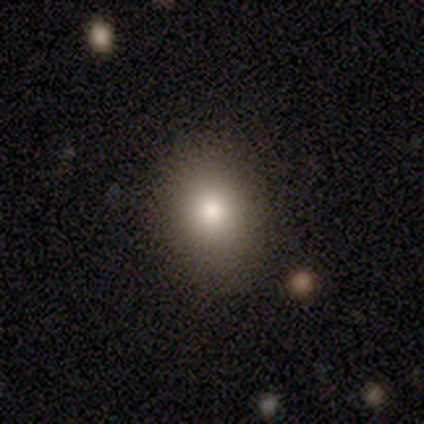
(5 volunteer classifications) Volunteers were most divided on "how rounded": round: 80%, in between: 20%, cigar-shaped: 0%. More confident: smooth or featured — smooth (100%); merging — none (100%).